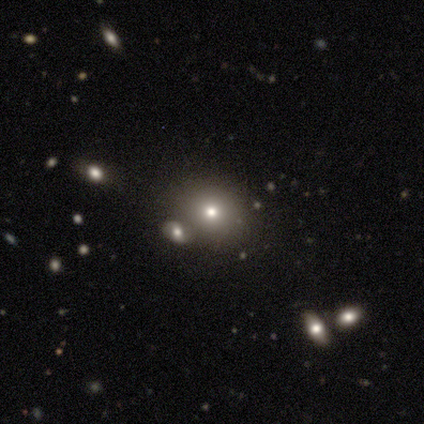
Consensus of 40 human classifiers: A smooth galaxy with no disk features (65%) that is round (85%). Merging: none (61%).